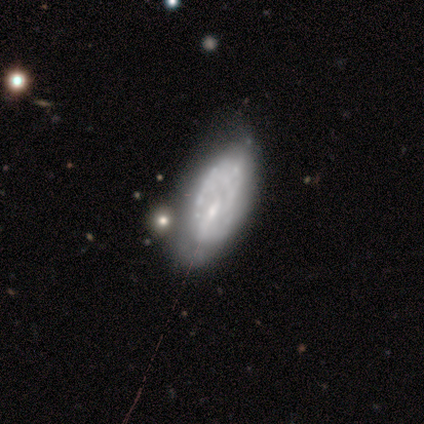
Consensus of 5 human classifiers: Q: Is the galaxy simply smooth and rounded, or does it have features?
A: smooth — 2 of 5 (40%, tied with featured or disk).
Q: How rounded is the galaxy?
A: in between — 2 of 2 (100%).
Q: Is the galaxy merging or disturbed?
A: none — 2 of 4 (50%, tied with minor disturbance).